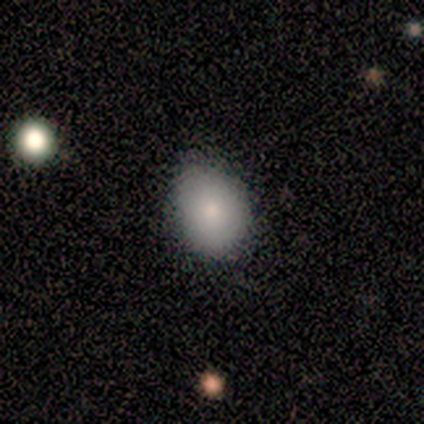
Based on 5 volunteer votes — Smooth or featured? smooth (60%)
How rounded? round (33%, tied with in between and cigar-shaped)
Merging? none (100%)